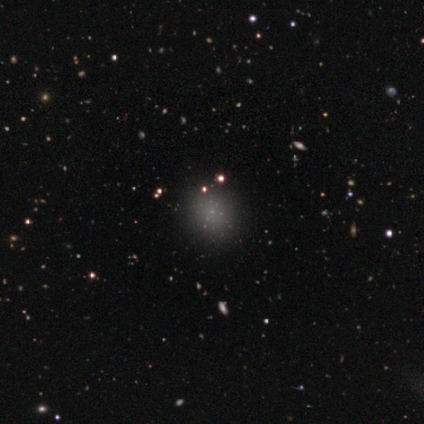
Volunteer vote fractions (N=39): Smooth or featured?
  - smooth: 46% *
  - star or artifact: 38%
  - featured or disk: 15%
How rounded?
  - round: 72% *
  - in between: 28%
  - cigar-shaped: 0%
Merging?
  - none: 92% *
  - minor disturbance: 4%
  - merger: 4%
  - major disturbance: 0%